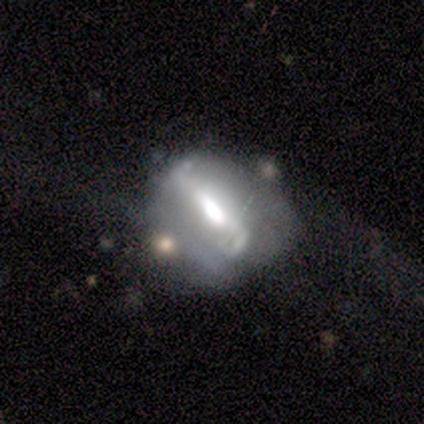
Smooth or featured: featured or disk — 80% (smooth — 20%)
Edge-on disk: no — 100%
Bar: weak — 50% (strong — 25%)
Spiral arms: yes — 50% (tied with no — 50%)
Spiral winding: medium — 50% (tied with loose — 50%)
Spiral arm count: 2 — 100%
Bulge size: moderate — 75% (large — 25%)
Merging: none — 60% (minor disturbance — 20%)